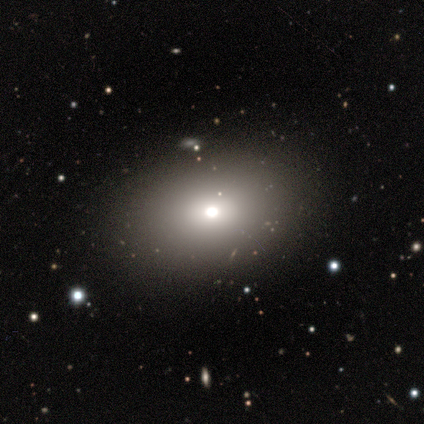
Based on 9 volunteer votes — Smooth or featured? smooth (78%)
How rounded? in between (86%)
Merging? none (86%)